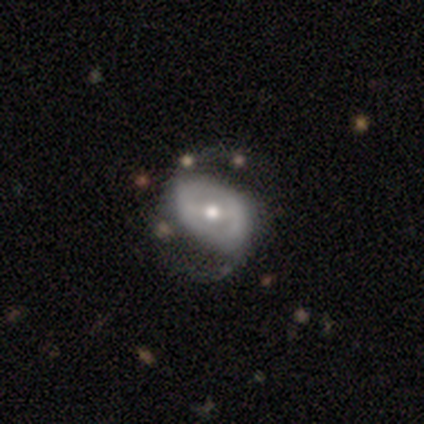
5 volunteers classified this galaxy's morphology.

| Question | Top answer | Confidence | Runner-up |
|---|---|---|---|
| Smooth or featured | featured or disk | 100% | — |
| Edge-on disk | no | 100% | — |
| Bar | no | 60% | strong (20%) |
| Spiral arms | yes | 80% | no (20%) |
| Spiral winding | loose | 75% | tight (25%) |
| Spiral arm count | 2 | 100% | — |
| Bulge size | small | 60% | moderate (40%) |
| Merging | none | 60% | major disturbance (40%) |